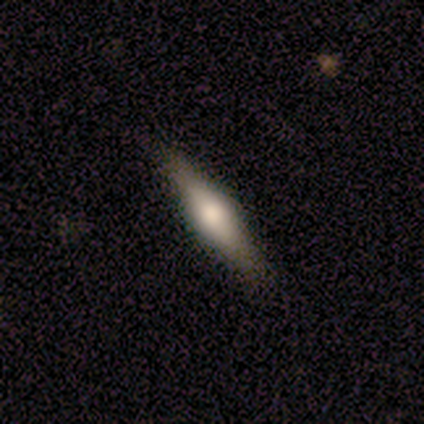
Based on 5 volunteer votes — Smooth or featured?
  - smooth: 60% *
  - featured or disk: 40%
  - star or artifact: 0%
How rounded?
  - in between: 67% *
  - cigar-shaped: 33%
  - round: 0%
Merging?
  - none: 80% *
  - major disturbance: 20%
  - minor disturbance: 0%
  - merger: 0%